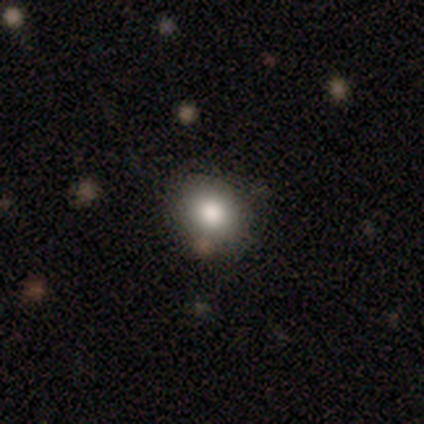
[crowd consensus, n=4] A smooth galaxy with no disk features (50%) that is round (100%). Merging: none (33%, tied with minor disturbance and major disturbance).